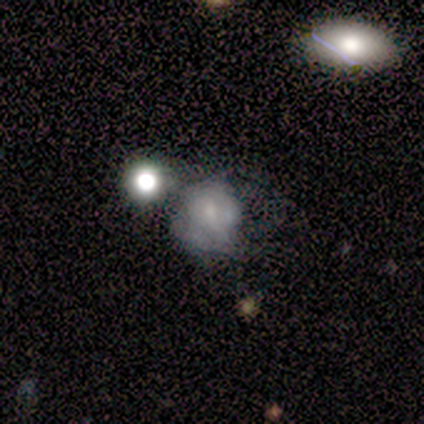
Smooth or featured?
  - smooth: 60% *
  - featured or disk: 20%
  - star or artifact: 20%
How rounded?
  - in between: 67% *
  - round: 33%
  - cigar-shaped: 0%
Merging?
  - none: 25% * (tied)
  - minor disturbance: 25% * (tied)
  - major disturbance: 25% * (tied)
  - merger: 25% * (tied)